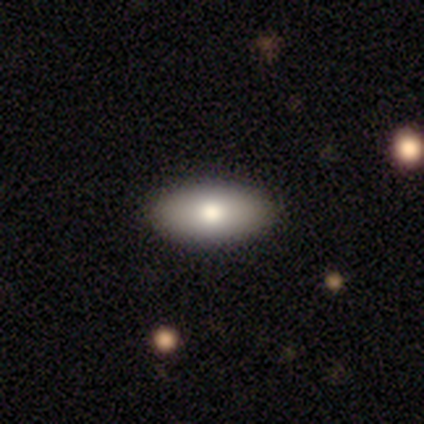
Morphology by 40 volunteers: Volunteers were most divided on "merging": none: 87%, minor disturbance: 13%, major disturbance: 0%, merger: 0%. More confident: how rounded — in between (92%); smooth or featured — smooth (90%).